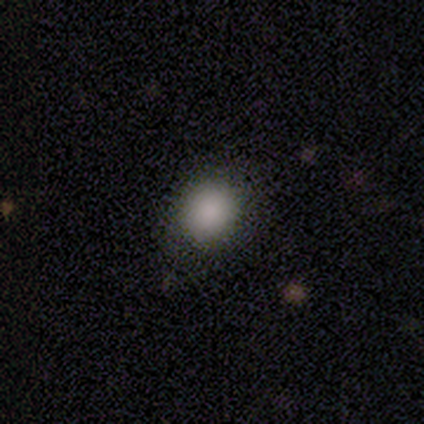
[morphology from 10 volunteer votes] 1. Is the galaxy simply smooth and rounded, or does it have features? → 90% smooth, 10% star or artifact, 0% featured or disk.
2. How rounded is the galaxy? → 67% round, 33% in between, 0% cigar-shaped.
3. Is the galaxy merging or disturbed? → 100% none, 0% minor disturbance, 0% major disturbance, 0% merger.